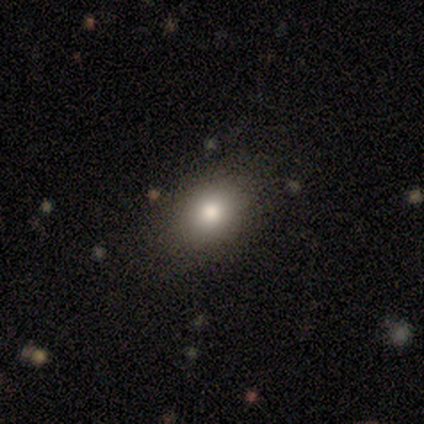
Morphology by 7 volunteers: This appears to be a smooth galaxy with no disk features (57%) that is in between round and cigar-shaped (100%). Merging: none (100%).